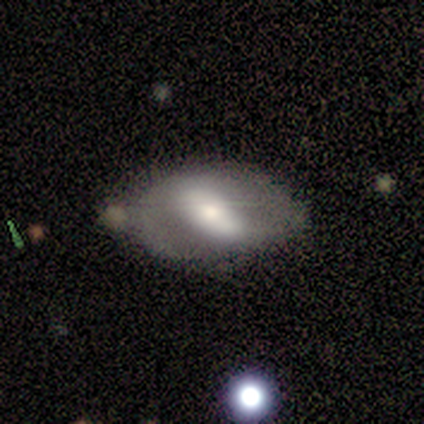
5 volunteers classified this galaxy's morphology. Smooth or featured?
  - smooth: 80% *
  - featured or disk: 20%
  - star or artifact: 0%
How rounded?
  - in between: 100% *
  - round: 0%
  - cigar-shaped: 0%
Merging?
  - none: 40% *
  - minor disturbance: 20%
  - major disturbance: 20%
  - merger: 20%